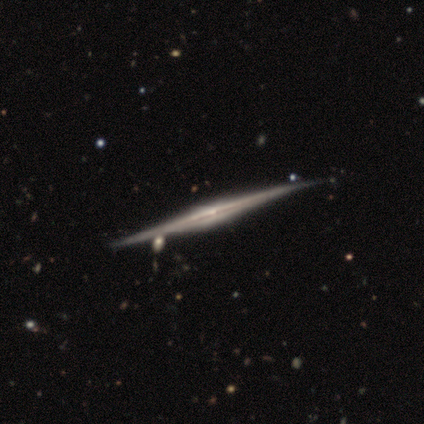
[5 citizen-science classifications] featured or disk 100%, smooth 0%, star or artifact 0%. Down the decision tree: edge-on disk — yes (80%); edge-on bulge — rounded (100%); merging — none (80%).